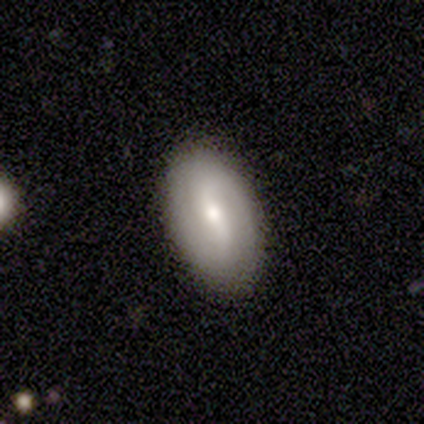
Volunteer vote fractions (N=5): Q: Smooth or featured?
A: featured or disk (60%); runner-up: smooth (40%)
Q: Edge-on disk?
A: no (100%)
Q: Bar?
A: weak (100%)
Q: Spiral arms?
A: yes (100%)
Q: Spiral winding?
A: tight (33%); tied with: medium (33%); loose (33%)
Q: Spiral arm count?
A: 2 (100%)
Q: Bulge size?
A: moderate (67%); runner-up: small (33%)
Q: Merging?
A: none (100%)